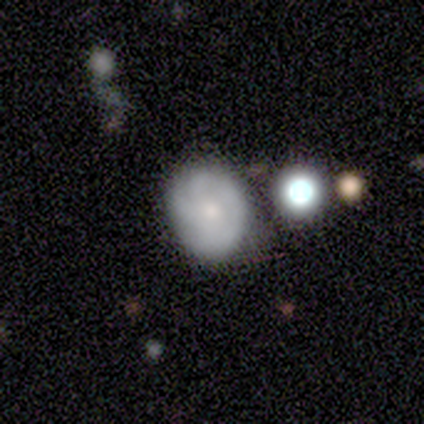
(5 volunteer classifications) smooth_or_featured: smooth (p=0.80) [alt: featured or disk p=0.20]
how_rounded: in between (p=0.75) [alt: round p=0.25]
merging: none (p=0.80) [alt: minor disturbance p=0.20]